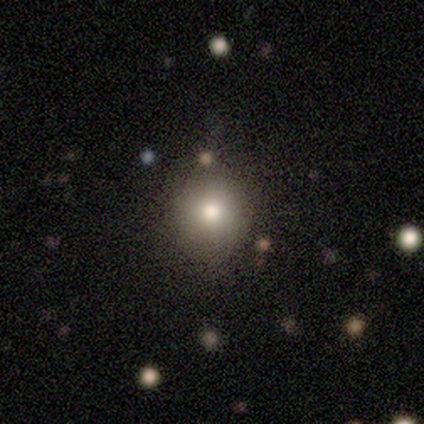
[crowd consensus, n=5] Smooth or featured? 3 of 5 (60%) said star or artifact.